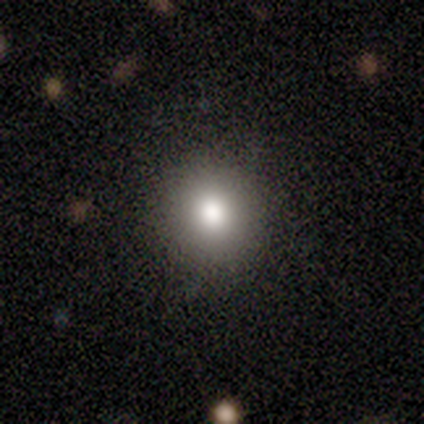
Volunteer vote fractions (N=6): smooth-or-featured: smooth: 83% | star or artifact: 17% | featured or disk: 0%
  how-rounded: round: 80% | in between: 20% | cigar-shaped: 0%
  merging: none: 100% | minor disturbance: 0% | major disturbance: 0% | merger: 0%